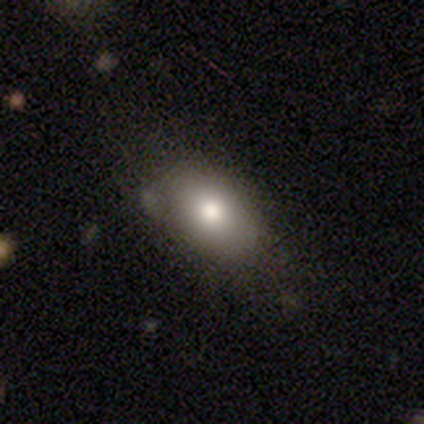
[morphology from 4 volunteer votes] Smooth or featured: smooth — 50% (tied with featured or disk — 50%)
How rounded: in between — 100%
Merging: none — 75% (major disturbance — 25%)